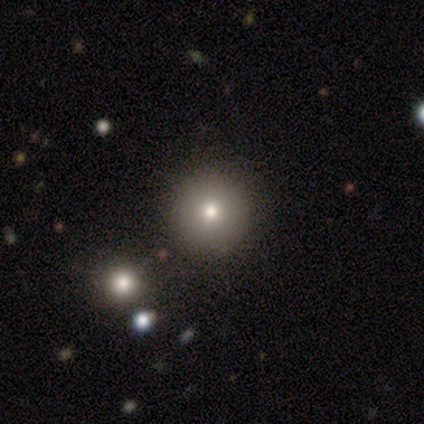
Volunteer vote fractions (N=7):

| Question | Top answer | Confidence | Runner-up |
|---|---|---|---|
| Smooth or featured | smooth | 86% | star or artifact (14%) |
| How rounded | round | 100% | — |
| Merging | none | 100% | — |